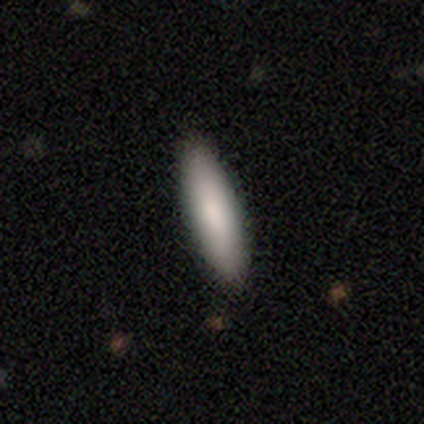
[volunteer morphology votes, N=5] smooth-or-featured: smooth: 100% | featured or disk: 0% | star or artifact: 0%
  how-rounded: cigar-shaped: 60% | in between: 40% | round: 0%
  merging: none: 80% | merger: 20% | minor disturbance: 0% | major disturbance: 0%